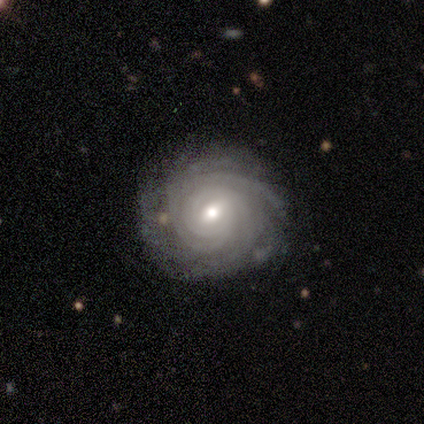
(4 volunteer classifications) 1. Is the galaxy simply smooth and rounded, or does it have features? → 75% featured or disk, 25% smooth, 0% star or artifact.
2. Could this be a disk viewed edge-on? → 100% no, 0% yes.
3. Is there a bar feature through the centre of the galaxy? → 67% no, 33% weak, 0% strong.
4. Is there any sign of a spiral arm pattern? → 100% yes, 0% no.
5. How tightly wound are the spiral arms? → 100% tight, 0% medium, 0% loose.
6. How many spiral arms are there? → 33% 4 (tied), 33% more than 4 (tied), 33% can't tell (tied), 0% 1, 0% 2, 0% 3.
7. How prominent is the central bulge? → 67% moderate, 33% small, 0% dominant, 0% large, 0% none.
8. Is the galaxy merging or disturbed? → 75% none, 25% minor disturbance, 0% major disturbance, 0% merger.